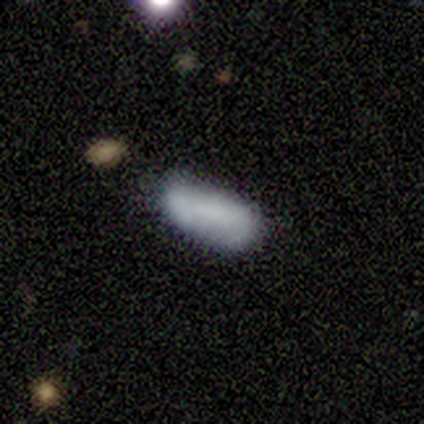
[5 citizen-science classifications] Overall: smooth (60%; featured or disk 20%). How rounded: in between (100%). Merging: minor disturbance (50%; none 25%).